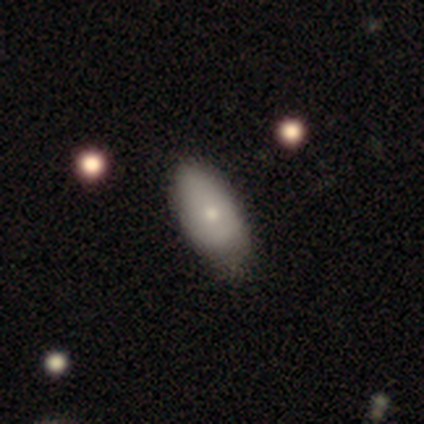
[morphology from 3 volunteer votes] Smooth or featured? 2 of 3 (67%) said smooth. How rounded? 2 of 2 (100%) said in between. Merging? 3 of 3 (100%) said none.